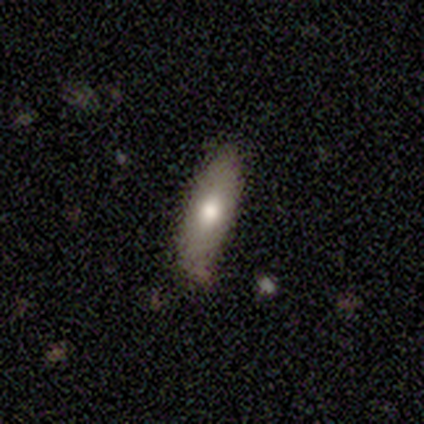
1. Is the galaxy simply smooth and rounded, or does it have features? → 80% smooth, 20% star or artifact, 0% featured or disk.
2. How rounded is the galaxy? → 50% in between (tied), 50% cigar-shaped (tied), 0% round.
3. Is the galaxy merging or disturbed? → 50% none (tied), 50% minor disturbance (tied), 0% major disturbance, 0% merger.